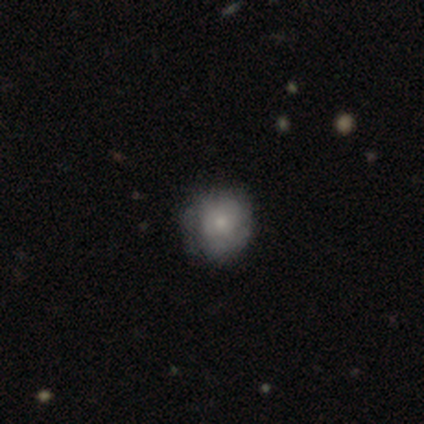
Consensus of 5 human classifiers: Q: Smooth or featured?
A: smooth (60%); runner-up: featured or disk (40%)
Q: How rounded?
A: round (100%)
Q: Merging?
A: none (80%); runner-up: major disturbance (20%)